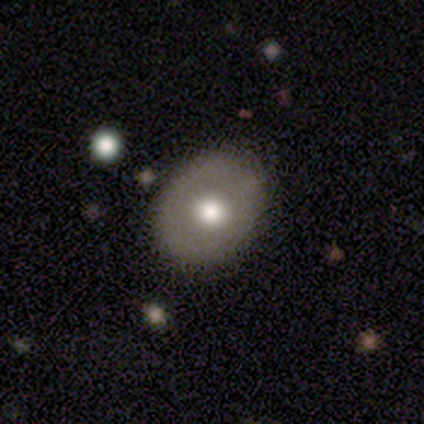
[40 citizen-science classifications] smooth-or-featured: smooth: 68% | featured or disk: 22% | star or artifact: 10%
  how-rounded: in between: 52% | round: 48% | cigar-shaped: 0%
  merging: none: 61% | minor disturbance: 3% | major disturbance: 0% | merger: 0%